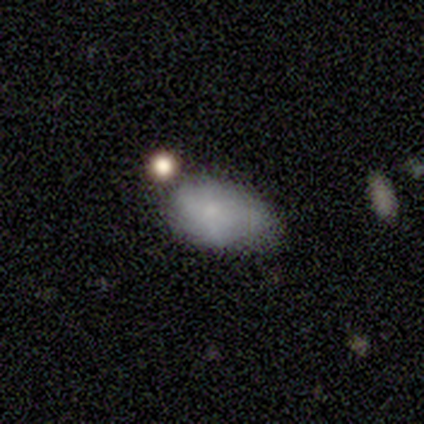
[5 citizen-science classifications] Overall: smooth (80%). How rounded: in between (100%). Merging: none (60%; minor disturbance 20%).